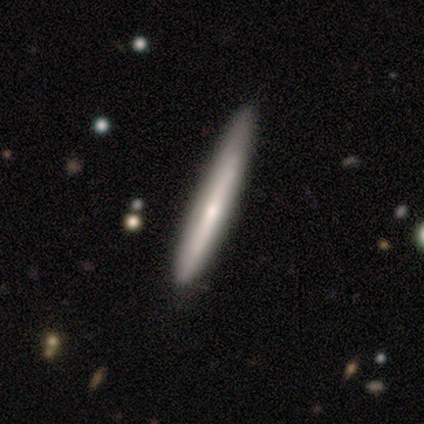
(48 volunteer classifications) smooth 65%, featured or disk 33%, star or artifact 2%. Down the decision tree: how rounded — cigar-shaped (100%); merging — none (72%).